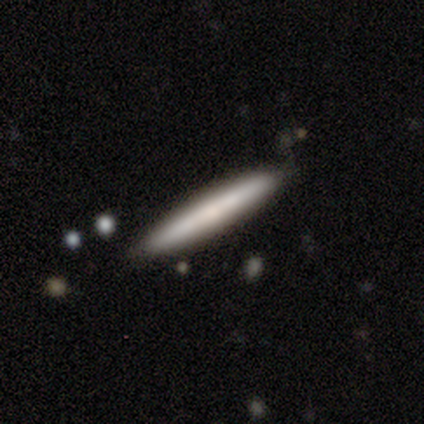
This is likely a featured or disk galaxy (60%). It is clearly viewed edge-on (100%). Edge-on bulge: clearly none (100%). Merging: clearly none (100%).